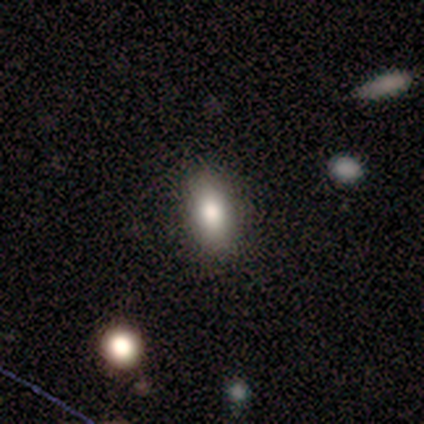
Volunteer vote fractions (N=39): Smooth or featured? smooth (79%)
How rounded? in between (84%)
Merging? none (97%)